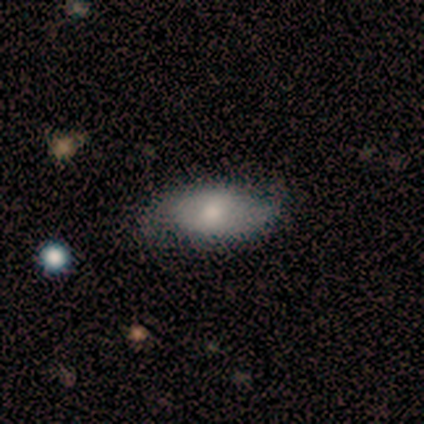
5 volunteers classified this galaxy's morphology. smooth 80%, featured or disk 20%, star or artifact 0%. Down the decision tree: how rounded — in between (100%); merging — none (60%).